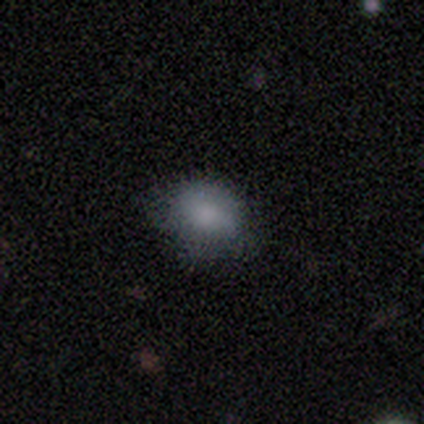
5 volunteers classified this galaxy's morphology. This appears to be a smooth galaxy with no disk features (80%) that is in between round and cigar-shaped (75%). Merging: none (50%).